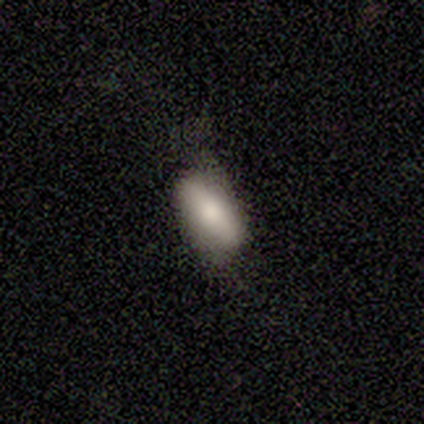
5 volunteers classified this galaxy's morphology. Overall: smooth (60%; featured or disk 20%). How rounded: in between (67%; cigar-shaped 33%). Merging: none (75%).